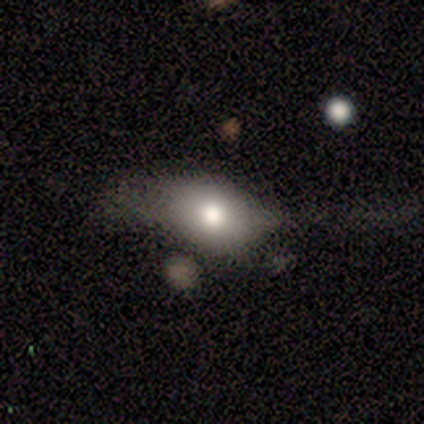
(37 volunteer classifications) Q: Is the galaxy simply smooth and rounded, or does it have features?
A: smooth — 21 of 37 (57%).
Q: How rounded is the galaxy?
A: in between — 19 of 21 (90%).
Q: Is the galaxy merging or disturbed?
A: none — 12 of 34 (35%).